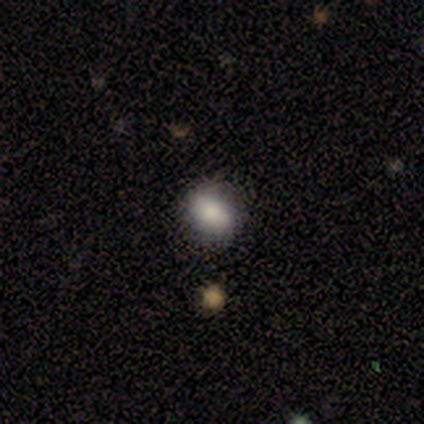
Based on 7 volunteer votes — smooth_or_featured: smooth (p=0.57) [alt: featured or disk p=0.29]
how_rounded: in between (p=1.00)
merging: none (p=0.67) [alt: minor disturbance p=0.17]